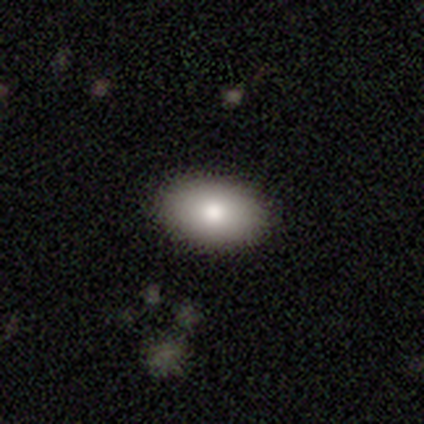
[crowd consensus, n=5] Morphology: type=smooth (100%); roundness=in between (100%); merging=none (100%).